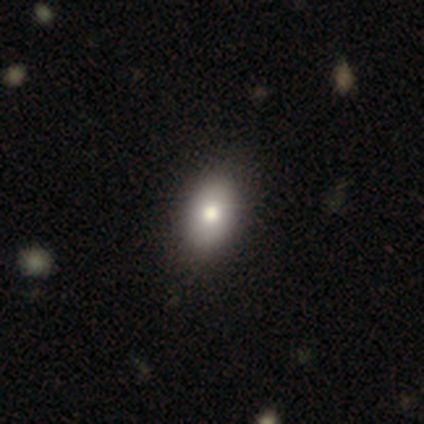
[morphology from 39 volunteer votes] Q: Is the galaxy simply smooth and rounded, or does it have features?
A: smooth — 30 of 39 (77%).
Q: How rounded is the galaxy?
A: in between — 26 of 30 (87%).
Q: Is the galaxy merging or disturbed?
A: none — 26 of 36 (72%).